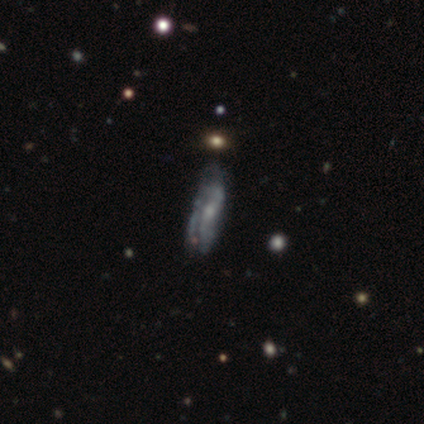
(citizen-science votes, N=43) This is possibly a smooth galaxy (47%, tied with featured or disk). How rounded: likely cigar-shaped (60%). Merging: possibly none (50%).